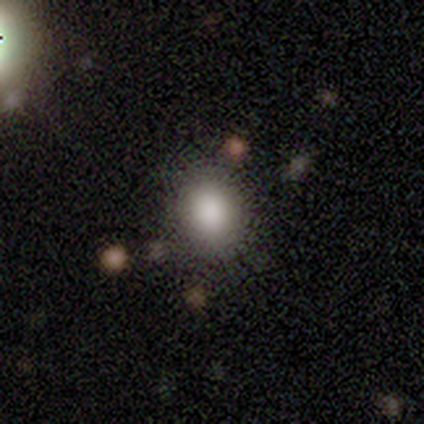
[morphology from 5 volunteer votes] smooth 100%, featured or disk 0%, star or artifact 0%. Down the decision tree: how rounded — round (60%); merging — none (80%).